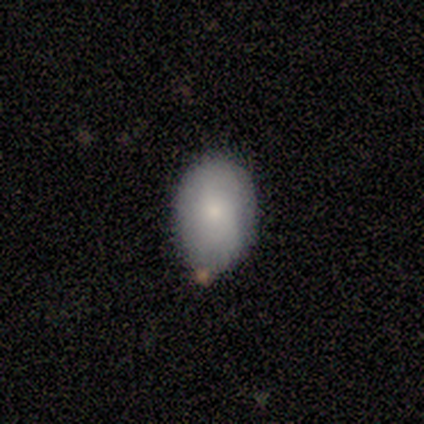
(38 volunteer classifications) Morphology: type=smooth (82%); roundness=in between (81%); merging=none (74%).